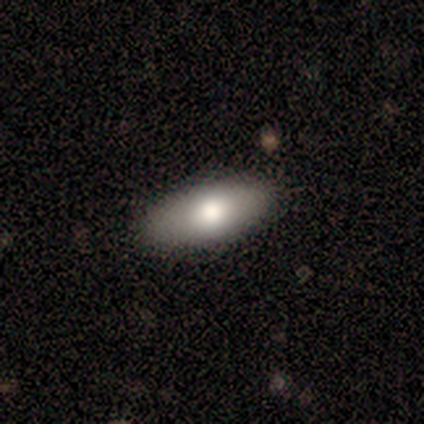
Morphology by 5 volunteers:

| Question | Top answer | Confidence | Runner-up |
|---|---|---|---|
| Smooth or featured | smooth | 100% | — |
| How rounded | in between | 100% | — |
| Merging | none | 80% | minor disturbance (20%) |